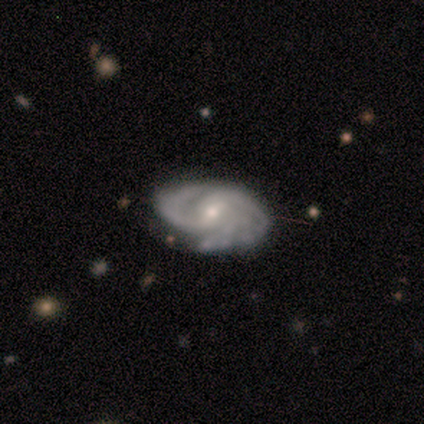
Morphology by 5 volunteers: This is clearly a featured or disk galaxy (80%). It is clearly not viewed edge-on (100%). Bar: likely no (75%). Spiral arm pattern: clearly yes (100%). Spiral arm count: possibly 2 (50%). Spiral winding: possibly tight (50%, tied with medium). Central bulge: possibly moderate (50%, tied with small). Merging: likely minor disturbance (60%).